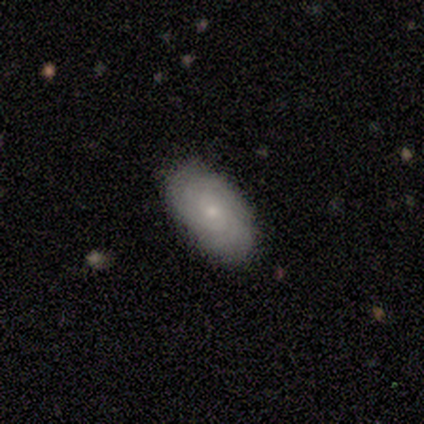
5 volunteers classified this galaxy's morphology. A featured or disk galaxy (60%) with no bar (100%), 2 (50%, tied with can't tell) tight (100%) spiral arms (67%) and a small central bulge (67%).

Vote fractions:
- Smooth or featured? featured or disk: 60% / star or artifact: 40% / smooth: 0%
- Edge-on disk? no: 100% / yes: 0%
- Bar? no: 100% / strong: 0% / weak: 0%
- Spiral arms? yes: 67% / no: 33%
- Spiral winding? tight: 100% / medium: 0% / loose: 0%
- Spiral arm count? 2: 50% (tied) / can't tell: 50% (tied) / 1: 0% / 3: 0% / 4: 0% / more than 4: 0%
- Bulge size? small: 67% / moderate: 33% / dominant: 0% / large: 0% / none: 0%
- Merging? none: 100% / minor disturbance: 0% / major disturbance: 0% / merger: 0%